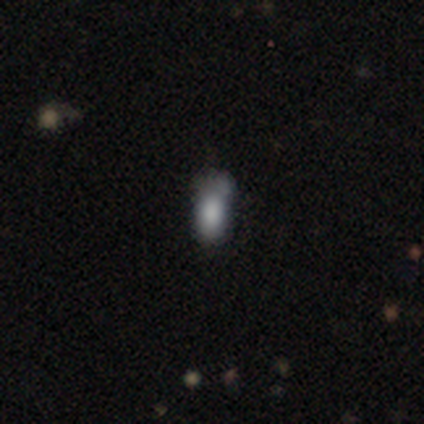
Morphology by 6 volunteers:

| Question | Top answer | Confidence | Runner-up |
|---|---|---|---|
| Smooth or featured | smooth | 100% | — |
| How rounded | in between | 83% | cigar-shaped (17%) |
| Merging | minor disturbance | 67% | none (17%) |